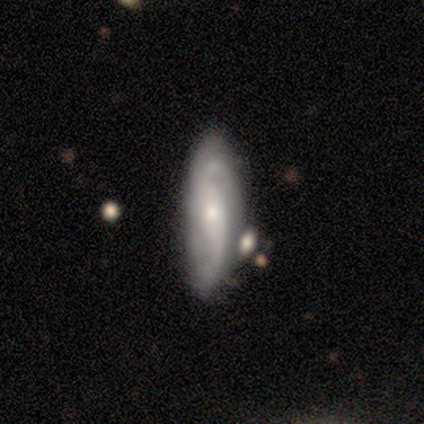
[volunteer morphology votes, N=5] Q: Smooth or featured?
A: featured or disk (80%); runner-up: smooth (20%)
Q: Edge-on disk?
A: no (100%)
Q: Bar?
A: weak (50%); runner-up: strong (25%)
Q: Spiral arms?
A: yes (100%)
Q: Spiral winding?
A: loose (100%)
Q: Spiral arm count?
A: 2 (50%); runner-up: 4 (25%)
Q: Bulge size?
A: moderate (50%); tied with: small (50%)
Q: Merging?
A: none (40%); tied with: merger (40%)